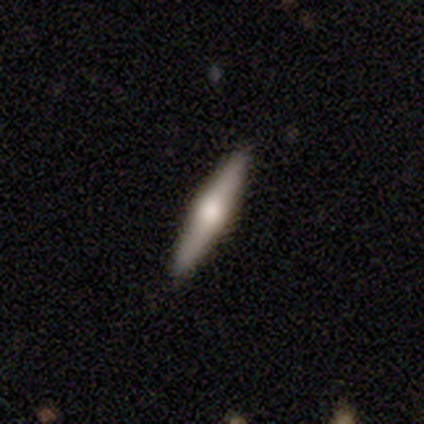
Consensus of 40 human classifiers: A featured or disk galaxy (65%) viewed edge-on (96%) with a rounded central bulge (96%).

Vote fractions:
- Smooth or featured? featured or disk: 65% / smooth: 30% / star or artifact: 5%
- Edge-on disk? yes: 96% / no: 4%
- Edge-on bulge? rounded: 96% / boxy: 4% / none: 0%
- Merging? none: 92% / minor disturbance: 5% / major disturbance: 3% / merger: 0%